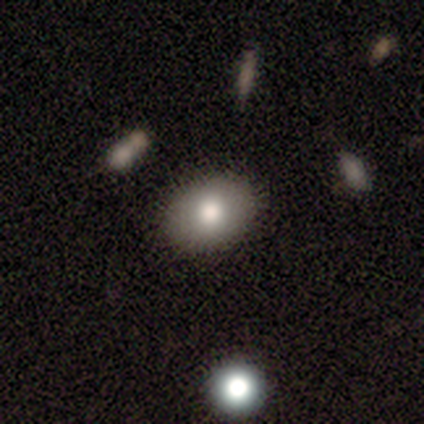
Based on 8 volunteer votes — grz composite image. It shows a smooth galaxy with no disk features (75%) that is in between round and cigar-shaped (83%). Merging: none (88%).